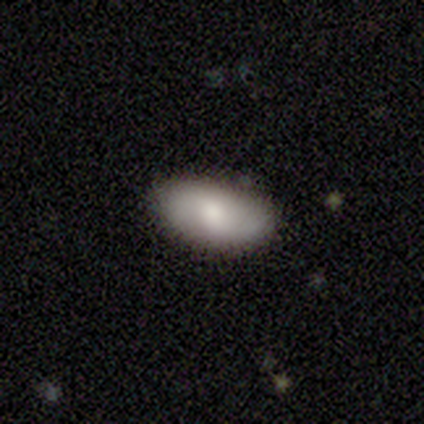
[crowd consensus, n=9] A smooth galaxy with no disk features (78%) that is in between round and cigar-shaped (100%). Merging: none (100%).